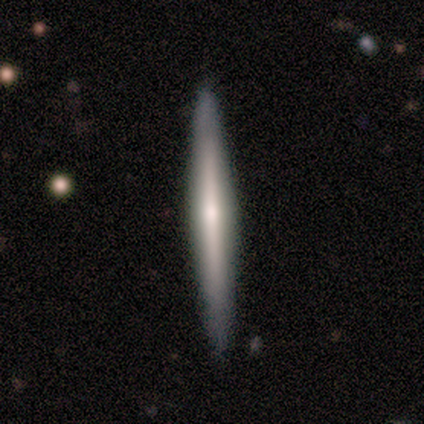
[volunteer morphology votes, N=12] Overall: featured or disk (58%; smooth 42%). Edge-on disk: yes (86%). Edge-on bulge: rounded (67%). Merging: none (100%).